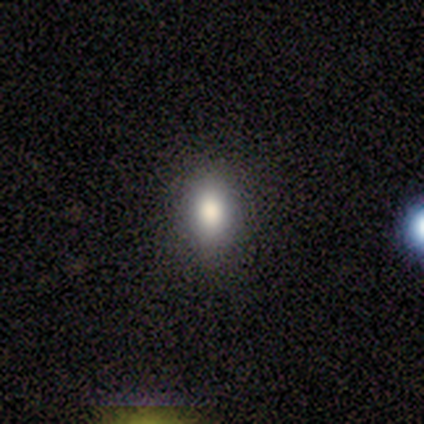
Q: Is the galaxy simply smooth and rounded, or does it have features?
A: smooth — 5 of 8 (62%).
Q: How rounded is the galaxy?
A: in between — 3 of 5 (60%).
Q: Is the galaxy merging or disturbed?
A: none — 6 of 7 (86%).